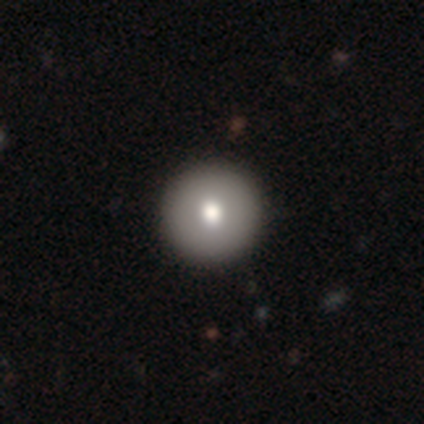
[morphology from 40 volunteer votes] Smooth or featured: smooth — 72% (featured or disk — 22%)
How rounded: round — 97% (in between — 3%)
Merging: none — 97% (minor disturbance — 3%)